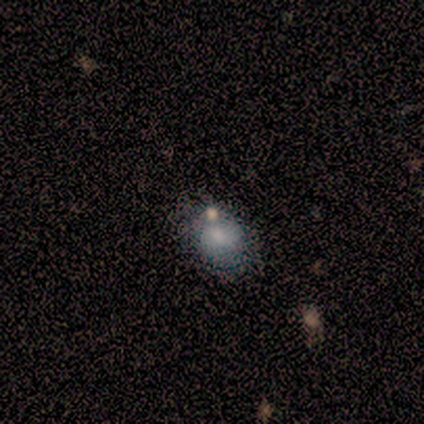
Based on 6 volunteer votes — Smooth or featured? 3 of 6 (50%) said smooth. How rounded? 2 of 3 (67%) said in between. Merging? 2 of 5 (40%) said none.